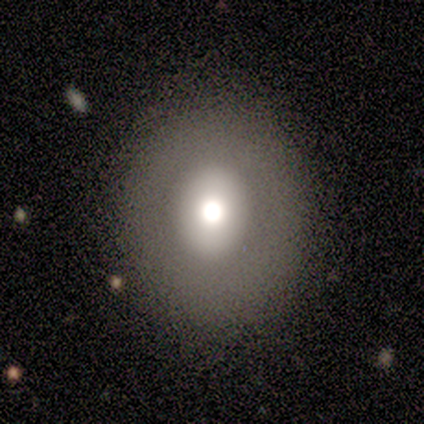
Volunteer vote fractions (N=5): This appears to be a smooth galaxy with no disk features (80%) that is round (75%). Merging: major disturbance (60%).